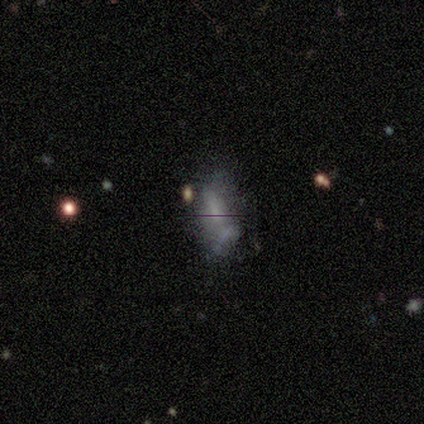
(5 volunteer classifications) smooth_or_featured: smooth (p=0.40) [tied with: featured or disk p=0.40]
how_rounded: in between (p=1.00)
merging: none (p=0.25) [tied with: minor disturbance p=0.25, major disturbance p=0.25, merger p=0.25]